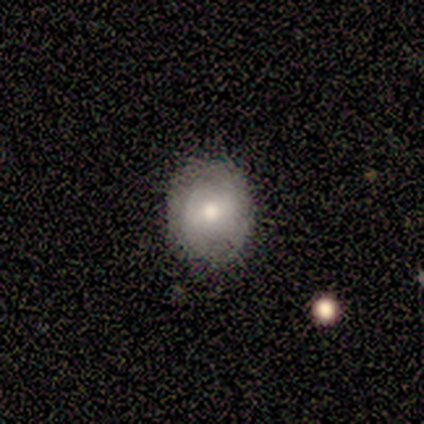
A smooth galaxy with no disk features (60%) that is round (67%). Merging: none (75%).